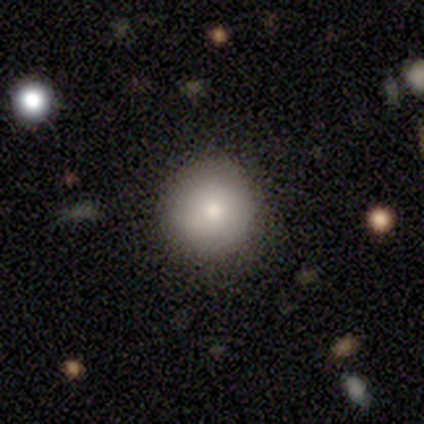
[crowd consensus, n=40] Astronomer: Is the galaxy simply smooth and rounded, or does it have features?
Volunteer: smooth — 85%.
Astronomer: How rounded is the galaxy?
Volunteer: round — 97%.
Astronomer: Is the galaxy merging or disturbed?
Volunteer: none — 92%.